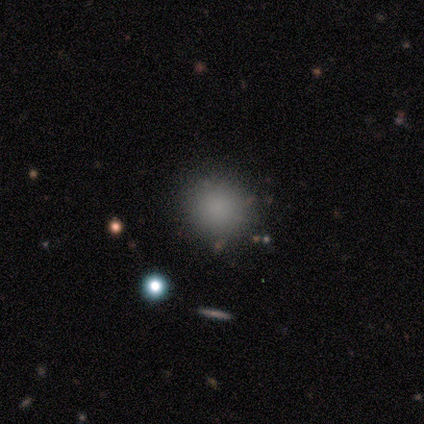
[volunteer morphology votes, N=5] This appears to be a smooth galaxy with no disk features (80%) that is round (100%). Merging: none (100%).